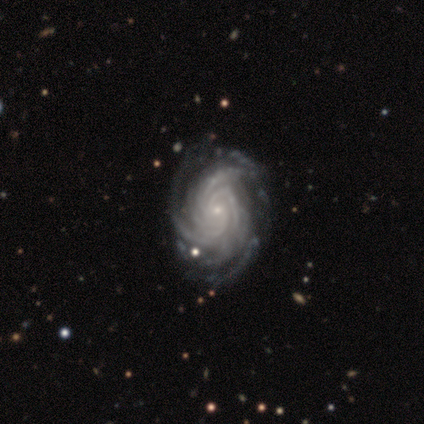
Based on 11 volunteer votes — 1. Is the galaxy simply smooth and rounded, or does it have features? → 100% featured or disk, 0% smooth, 0% star or artifact.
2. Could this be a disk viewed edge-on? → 100% no, 0% yes.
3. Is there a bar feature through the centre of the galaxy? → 82% no, 18% weak, 0% strong.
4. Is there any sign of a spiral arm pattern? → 100% yes, 0% no.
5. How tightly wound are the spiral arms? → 100% tight, 0% medium, 0% loose.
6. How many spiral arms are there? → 36% 4, 27% more than 4, 18% can't tell, 9% 2, 9% 3, 0% 1.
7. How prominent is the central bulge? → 91% small, 9% moderate, 0% dominant, 0% large, 0% none.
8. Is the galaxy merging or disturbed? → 73% none, 18% major disturbance, 9% minor disturbance, 0% merger.